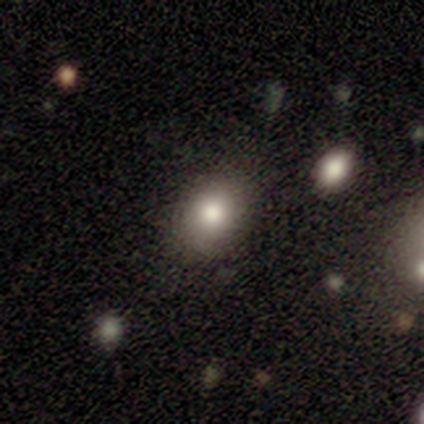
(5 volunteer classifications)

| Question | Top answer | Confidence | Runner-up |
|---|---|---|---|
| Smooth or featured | smooth | 80% | featured or disk (20%) |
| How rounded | round | 50% | tied: in between (50%) |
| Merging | none | 80% | minor disturbance (20%) |